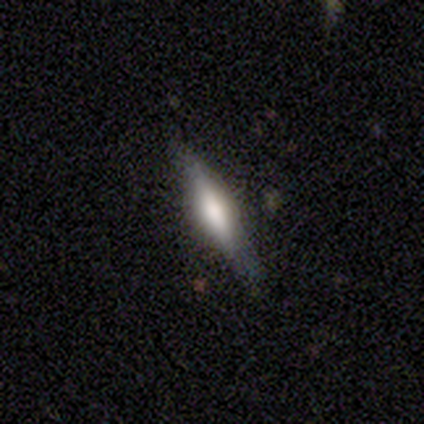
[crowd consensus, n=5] Q: Smooth or featured?
A: smooth (80%); runner-up: featured or disk (20%)
Q: How rounded?
A: in between (75%); runner-up: cigar-shaped (25%)
Q: Merging?
A: none (80%); runner-up: minor disturbance (20%)